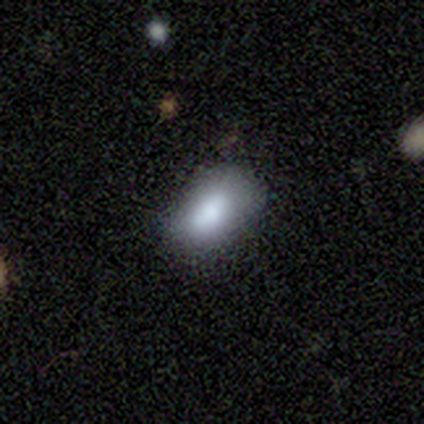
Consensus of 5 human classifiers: smooth-or-featured: smooth: 100% | featured or disk: 0% | star or artifact: 0%
  how-rounded: in between: 100% | round: 0% | cigar-shaped: 0%
  merging: none: 100% | minor disturbance: 0% | major disturbance: 0% | merger: 0%